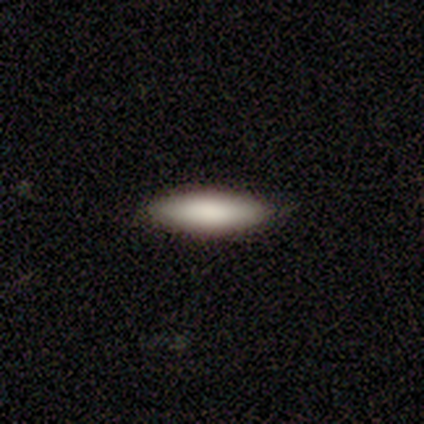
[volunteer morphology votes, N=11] smooth 91%, featured or disk 9%, star or artifact 0%. Down the decision tree: how rounded — in between (50%, tied with cigar-shaped); merging — none (82%).